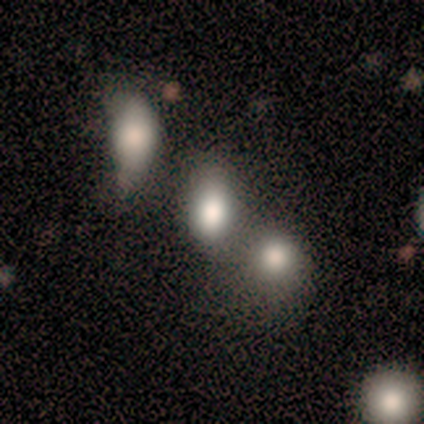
Smooth or featured? 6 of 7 (86%) said smooth. How rounded? 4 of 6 (67%) said in between. Merging? 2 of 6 (33%, tied with minor disturbance and merger) said none.